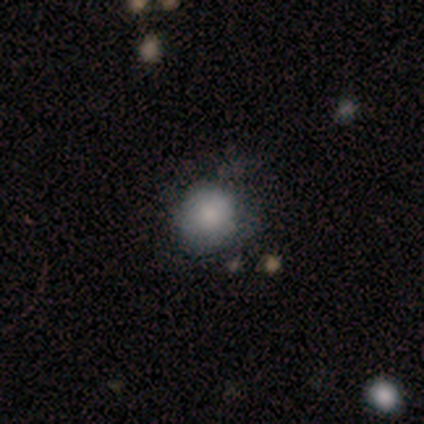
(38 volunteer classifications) Q: Smooth or featured?
A: smooth (66%); runner-up: star or artifact (18%)
Q: How rounded?
A: round (92%); runner-up: in between (8%)
Q: Merging?
A: none (68%); runner-up: minor disturbance (19%)